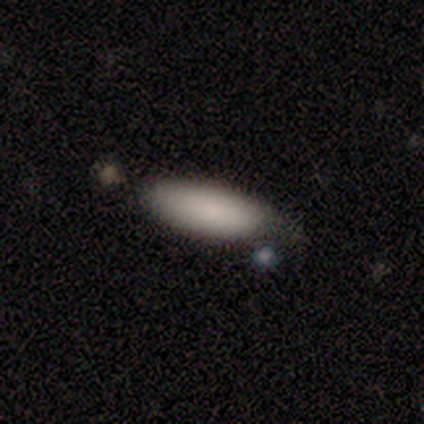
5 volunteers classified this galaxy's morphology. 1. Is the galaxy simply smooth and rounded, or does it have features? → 100% smooth, 0% featured or disk, 0% star or artifact.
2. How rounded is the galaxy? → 60% cigar-shaped, 40% in between, 0% round.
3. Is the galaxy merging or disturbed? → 80% none, 20% merger, 0% minor disturbance, 0% major disturbance.